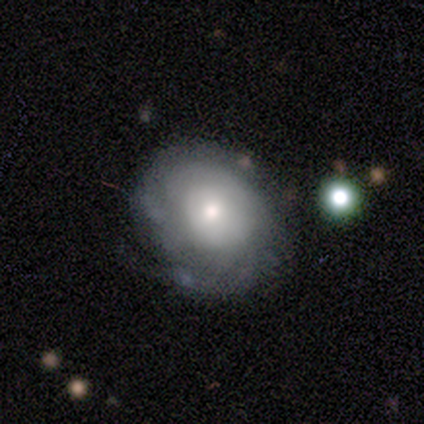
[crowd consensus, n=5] Smooth or featured?
  - featured or disk: 60% *
  - smooth: 40%
  - star or artifact: 0%
Edge-on disk?
  - no: 100% *
  - yes: 0%
Bar?
  - no: 100% *
  - strong: 0%
  - weak: 0%
Spiral arms?
  - yes: 100% *
  - no: 0%
Spiral winding?
  - tight: 67% *
  - loose: 33%
  - medium: 0%
Spiral arm count?
  - 1: 67% *
  - can't tell: 33%
  - 2: 0%
  - 3: 0%
  - 4: 0%
  - more than 4: 0%
Bulge size?
  - moderate: 67% *
  - small: 33%
  - dominant: 0%
  - large: 0%
  - none: 0%
Merging?
  - none: 60% *
  - major disturbance: 40%
  - minor disturbance: 0%
  - merger: 0%